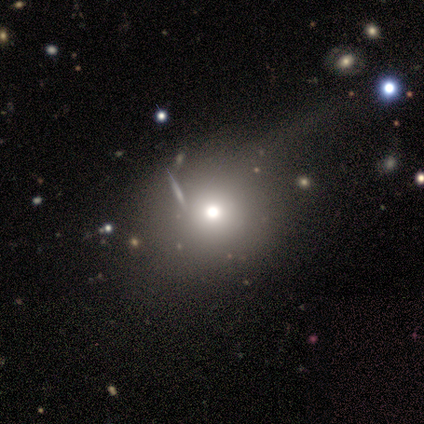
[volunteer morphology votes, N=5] Smooth or featured: smooth — 40% (tied with featured or disk — 40%)
How rounded: round — 100%
Merging: none — 75% (merger — 25%)